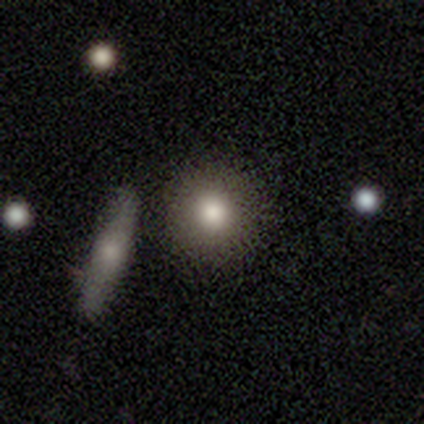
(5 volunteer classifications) smooth_or_featured: smooth (p=0.80) [alt: featured or disk p=0.20]
how_rounded: round (p=1.00)
merging: none (p=0.80) [alt: minor disturbance p=0.20]